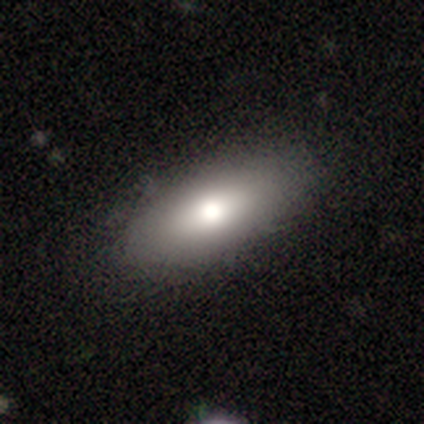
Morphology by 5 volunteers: A smooth galaxy with no disk features (60%) that is in between round and cigar-shaped (67%).

Vote fractions:
- Smooth or featured? smooth: 60% / featured or disk: 20% / star or artifact: 20%
- How rounded? in between: 67% / cigar-shaped: 33% / round: 0%
- Merging? none: 75% / minor disturbance: 25% / major disturbance: 0% / merger: 0%